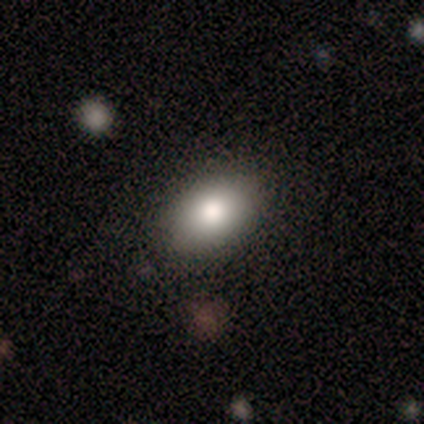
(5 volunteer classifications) A smooth galaxy with no disk features (100%) that is in between round and cigar-shaped (100%).

Vote fractions:
- Smooth or featured? smooth: 100% / featured or disk: 0% / star or artifact: 0%
- How rounded? in between: 100% / round: 0% / cigar-shaped: 0%
- Merging? none: 80% / minor disturbance: 20% / major disturbance: 0% / merger: 0%